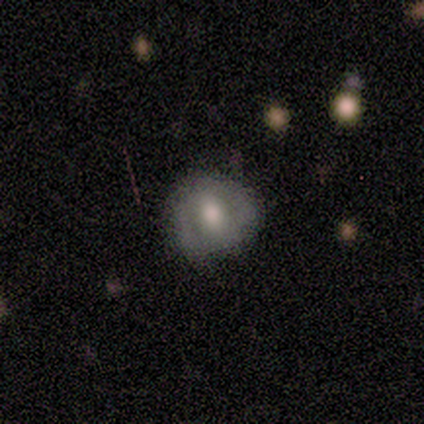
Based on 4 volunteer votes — Q: Smooth or featured?
A: featured or disk (75%); runner-up: smooth (25%)
Q: Edge-on disk?
A: no (100%)
Q: Bar?
A: no (67%); runner-up: strong (33%)
Q: Spiral arms?
A: no (100%)
Q: Bulge size?
A: moderate (67%); runner-up: small (33%)
Q: Merging?
A: none (100%)